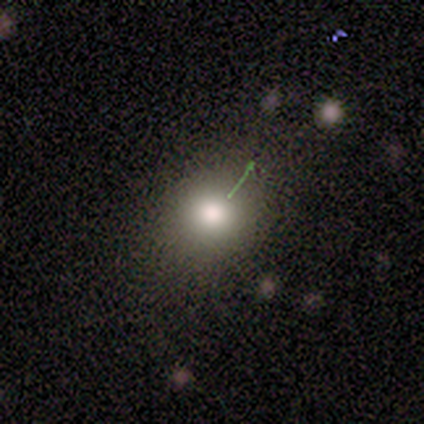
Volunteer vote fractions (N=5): Volunteers were most divided on "how rounded": round: 60%, in between: 40%, cigar-shaped: 0%. More confident: smooth or featured — smooth (100%); merging — none (80%).